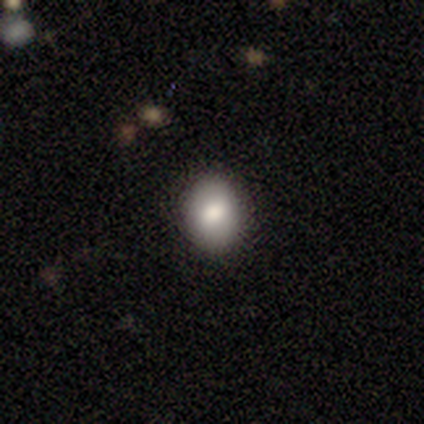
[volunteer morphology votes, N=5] Smooth or featured? smooth (100%)
How rounded? round (80%)
Merging? none (80%)